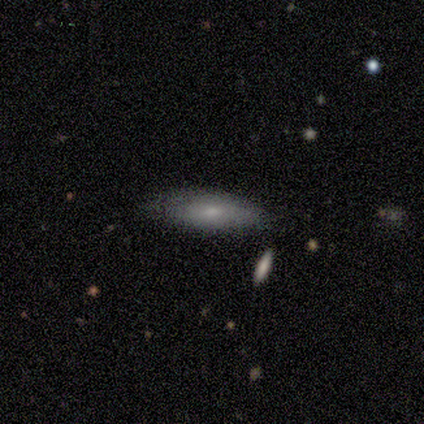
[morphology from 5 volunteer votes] A smooth galaxy with no disk features (60%) that is cigar-shaped (67%).

Vote fractions:
- Smooth or featured? smooth: 60% / featured or disk: 20% / star or artifact: 20%
- How rounded? cigar-shaped: 67% / in between: 33% / round: 0%
- Merging? none: 75% / major disturbance: 25% / minor disturbance: 0% / merger: 0%